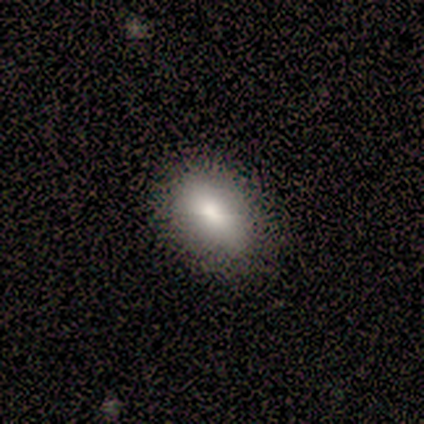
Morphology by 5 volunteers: Overall: smooth (80%). How rounded: in between (100%). Merging: none (100%).